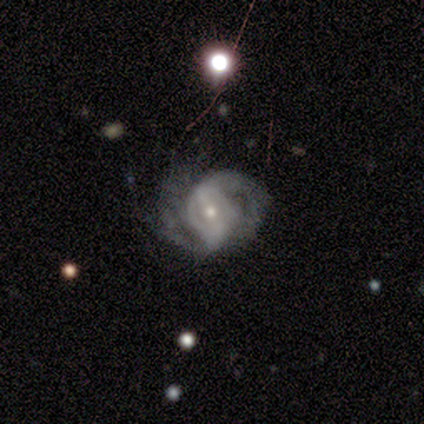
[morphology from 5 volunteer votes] Smooth or featured: featured or disk — 100%
Edge-on disk: no — 100%
Bar: weak — 80% (no — 20%)
Spiral arms: yes — 100%
Spiral winding: tight — 40% (tied with medium — 40%)
Spiral arm count: 1 — 40% (tied with 2 — 40%)
Bulge size: small — 60% (moderate — 40%)
Merging: none — 40% (tied with major disturbance — 40%)